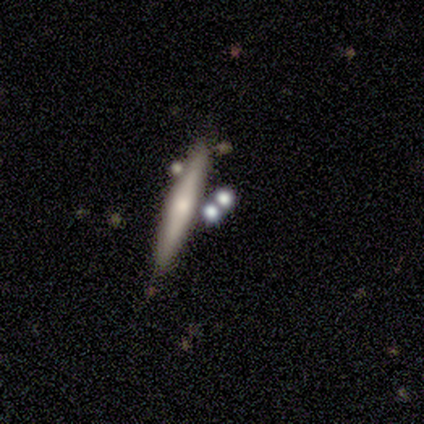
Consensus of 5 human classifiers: Morphology: type=smooth (80%); roundness=cigar-shaped (75%); merging=none (80%).